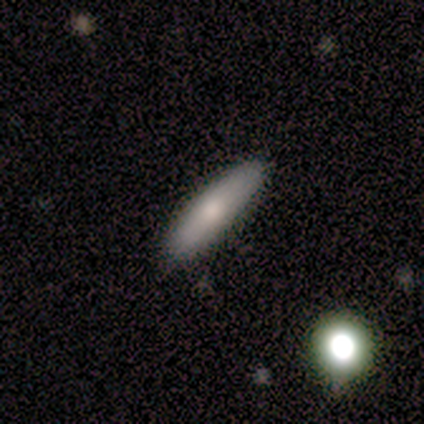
Smooth or featured: smooth — 100%
How rounded: cigar-shaped — 100%
Merging: none — 100%